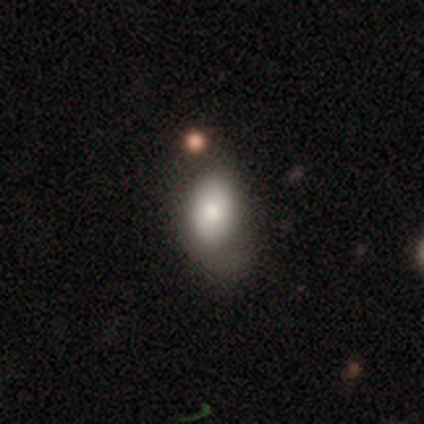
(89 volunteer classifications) Volunteers were most divided on "merging": none: 49%, minor disturbance: 29%, major disturbance: 18%, merger: 4%. More confident: how rounded — in between (93%); smooth or featured — smooth (66%).